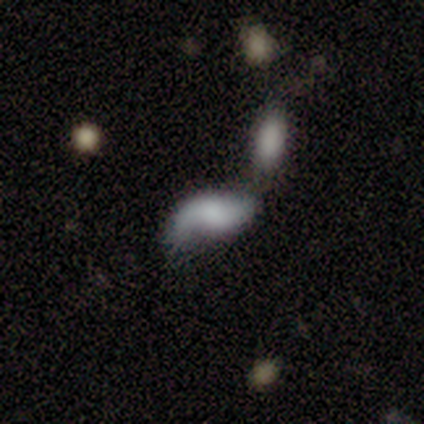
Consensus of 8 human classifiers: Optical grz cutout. It shows a featured or disk galaxy (75%) with no bar (67%), 2 (100%) loose (100%) spiral arms (67%) and no central bulge (67%). Merging: minor disturbance (38%).